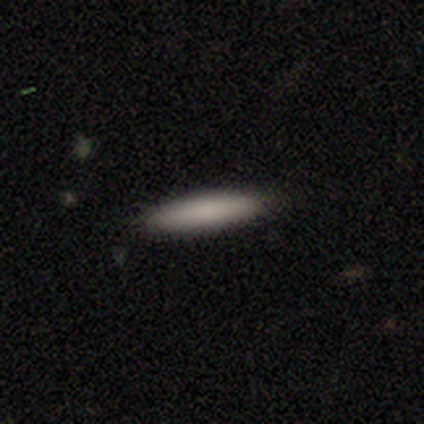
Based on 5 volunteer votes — A smooth galaxy with no disk features (80%) that is cigar-shaped (100%). Merging: none (80%).